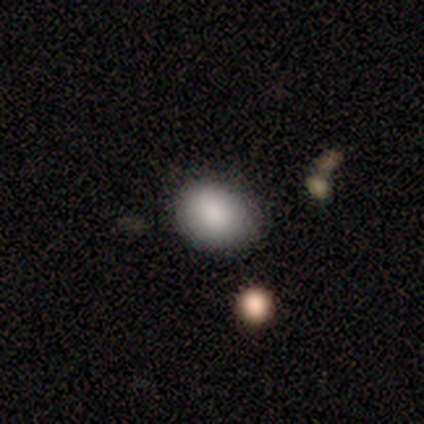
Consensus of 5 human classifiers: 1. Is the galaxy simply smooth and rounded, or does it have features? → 60% smooth, 20% featured or disk, 20% star or artifact.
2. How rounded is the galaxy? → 67% round, 33% in between, 0% cigar-shaped.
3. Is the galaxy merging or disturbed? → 75% none, 25% minor disturbance, 0% major disturbance, 0% merger.